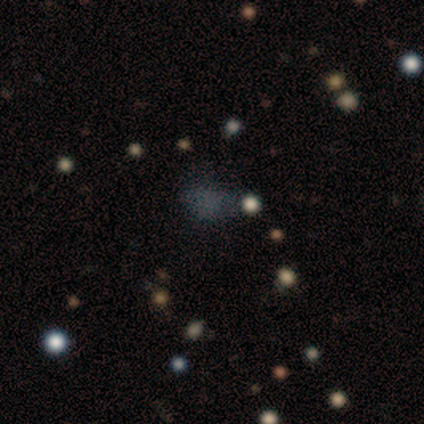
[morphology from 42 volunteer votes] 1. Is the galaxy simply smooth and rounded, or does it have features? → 60% smooth, 31% star or artifact, 10% featured or disk.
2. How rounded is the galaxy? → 60% in between, 40% round, 0% cigar-shaped.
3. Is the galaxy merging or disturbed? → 62% none, 21% major disturbance, 14% minor disturbance, 3% merger.